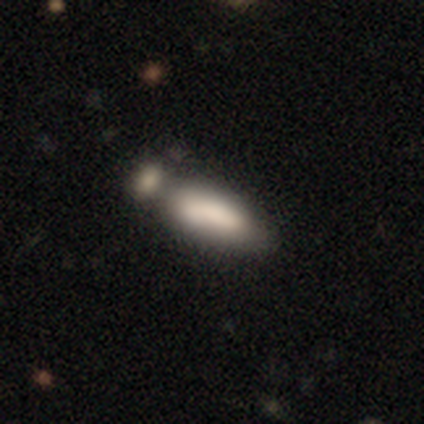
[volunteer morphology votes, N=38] Smooth or featured: smooth — 71% (featured or disk — 26%)
How rounded: in between — 74% (cigar-shaped — 26%)
Merging: merger — 54% (none — 22%)